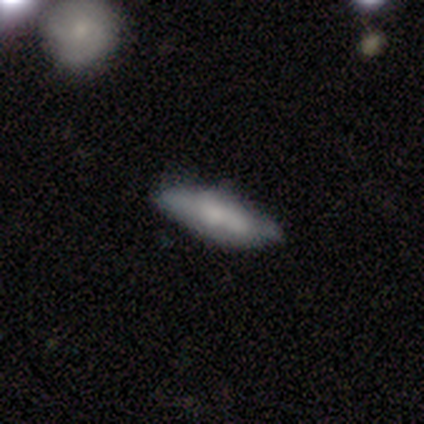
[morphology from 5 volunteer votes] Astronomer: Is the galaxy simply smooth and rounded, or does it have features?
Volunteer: smooth — 60%.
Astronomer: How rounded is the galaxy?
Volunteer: in between — 67%.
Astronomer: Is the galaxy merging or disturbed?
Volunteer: none — 100%.